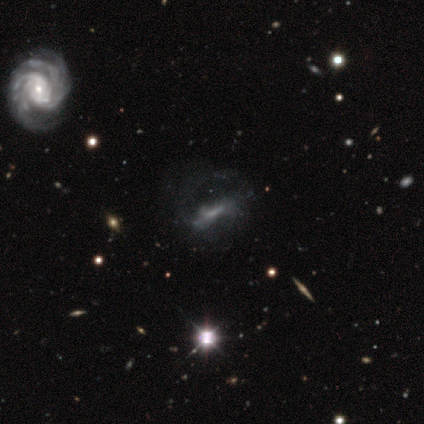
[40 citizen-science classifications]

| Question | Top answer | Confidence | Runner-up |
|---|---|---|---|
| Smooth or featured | featured or disk | 62% | star or artifact (22%) |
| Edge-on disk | no | 88% | yes (12%) |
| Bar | strong | 36% | weak (32%) |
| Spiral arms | yes | 64% | no (36%) |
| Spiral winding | medium | 50% | loose (43%) |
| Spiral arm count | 2 | 43% | can't tell (29%) |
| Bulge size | none | 55% | small (36%) |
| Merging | major disturbance | 23% | none (19%) |